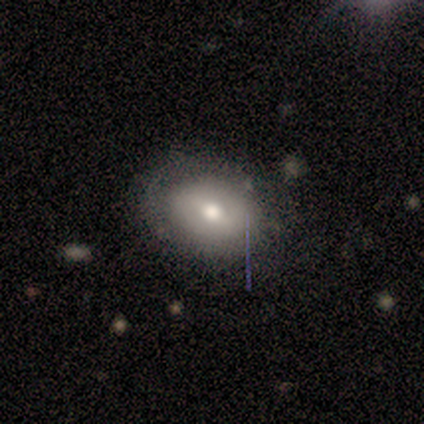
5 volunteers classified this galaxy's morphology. Volunteers were most divided on "smooth or featured": smooth: 60%, featured or disk: 40%, star or artifact: 0%. More confident: merging — none (80%); how rounded — round (67%).